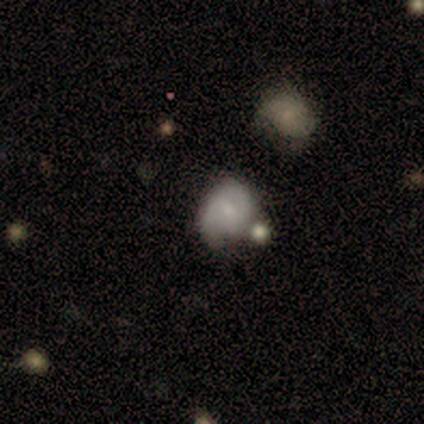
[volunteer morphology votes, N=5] Smooth or featured? featured or disk (60%)
Edge-on disk? no (100%)
Bar? no (100%)
Spiral arms? no (67%)
Bulge size? small (67%)
Merging? none (40%, tied with minor disturbance)